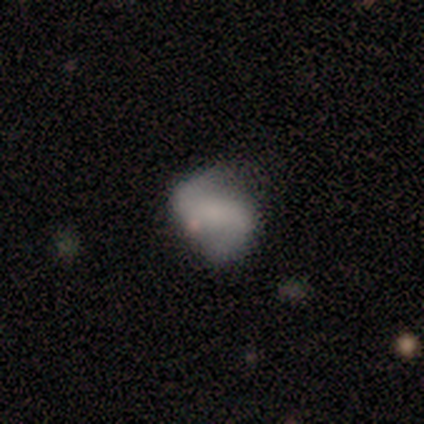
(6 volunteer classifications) Smooth or featured: featured or disk — 50% (smooth — 33%)
Edge-on disk: no — 100%
Bar: no — 67% (strong — 33%)
Spiral arms: yes — 67% (no — 33%)
Spiral winding: loose — 100%
Spiral arm count: 2 — 50% (tied with can't tell — 50%)
Bulge size: none — 67% (large — 33%)
Merging: none — 60% (minor disturbance — 20%)